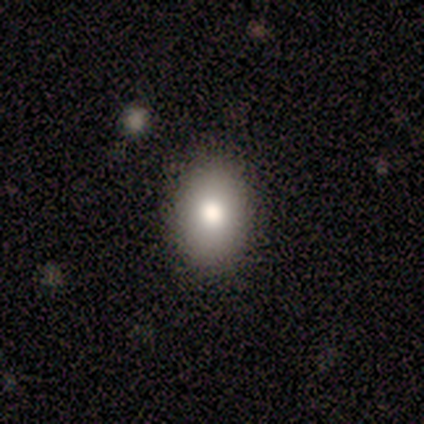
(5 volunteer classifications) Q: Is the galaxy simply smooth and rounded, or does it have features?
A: smooth — 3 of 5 (60%).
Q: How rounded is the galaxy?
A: in between — 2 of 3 (67%).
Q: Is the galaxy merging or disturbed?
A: none — 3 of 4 (75%).